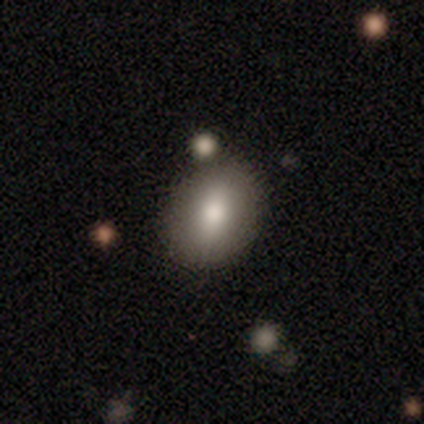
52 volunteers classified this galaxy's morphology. Smooth or featured: smooth — 75% (featured or disk — 15%)
How rounded: in between — 67% (round — 31%)
Merging: none — 77% (merger — 13%)